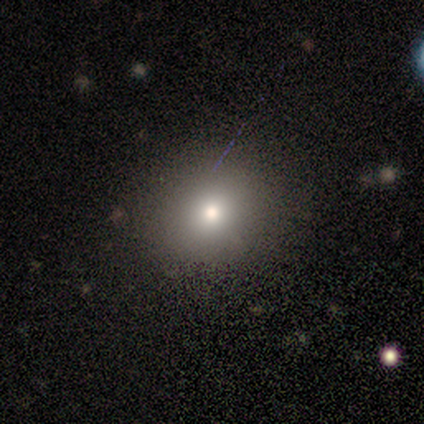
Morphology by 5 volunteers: smooth 80%, star or artifact 20%, featured or disk 0%. Down the decision tree: how rounded — round (100%); merging — none (100%).